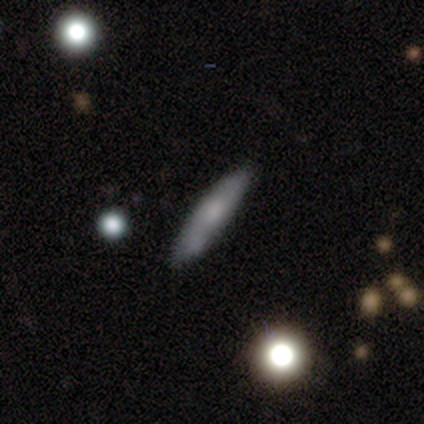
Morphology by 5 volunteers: Volunteers were most divided on "smooth or featured": featured or disk: 60%, smooth: 40%, star or artifact: 0%. More confident: edge-on disk — yes (100%); edge-on bulge — rounded (67%); merging — none (60%).